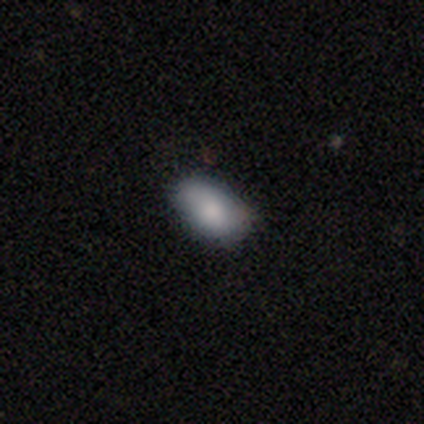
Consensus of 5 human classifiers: Smooth or featured: smooth — 80% (featured or disk — 20%)
How rounded: in between — 75% (round — 25%)
Merging: none — 60% (minor disturbance — 40%)